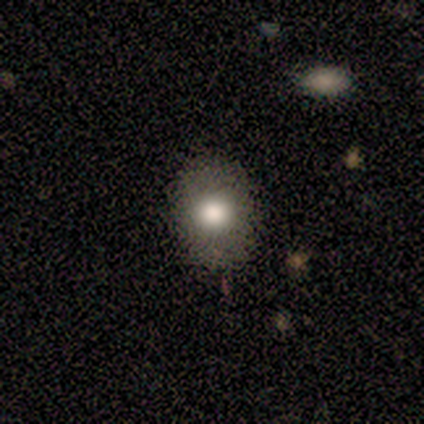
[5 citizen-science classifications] smooth_or_featured: smooth (p=0.60) [alt: featured or disk p=0.40]
how_rounded: in between (p=0.67) [alt: round p=0.33]
merging: none (p=0.80) [alt: minor disturbance p=0.20]